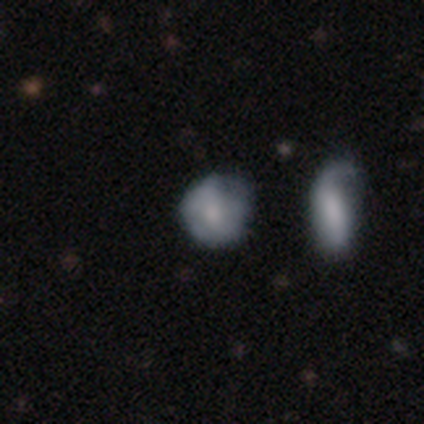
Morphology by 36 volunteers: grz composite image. It shows a smooth galaxy with no disk features (64%) that is round (61%). Merging: none (42%).